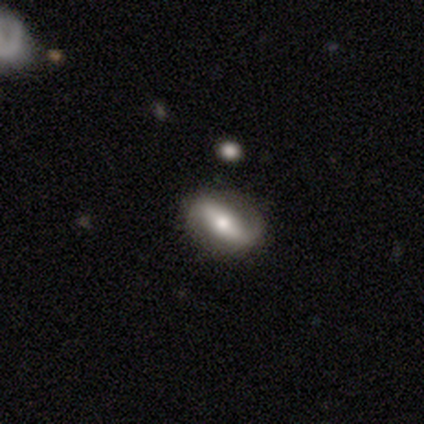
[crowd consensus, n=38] This appears to be a featured or disk galaxy (84%) with a strong bar (62%), 2 (100%) loose (57%) spiral arms (81%) and a moderate central bulge (62%). Merging: none (82%).